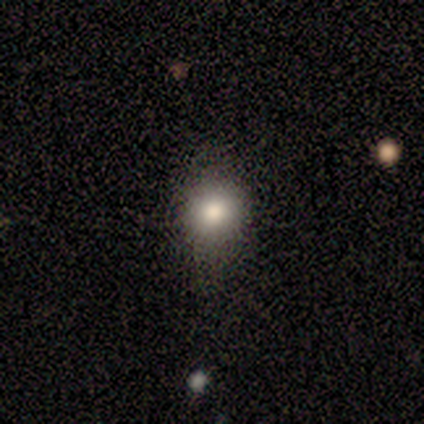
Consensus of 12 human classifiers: Morphology: type=smooth (67%); roundness=round (62%); merging=none (60%).